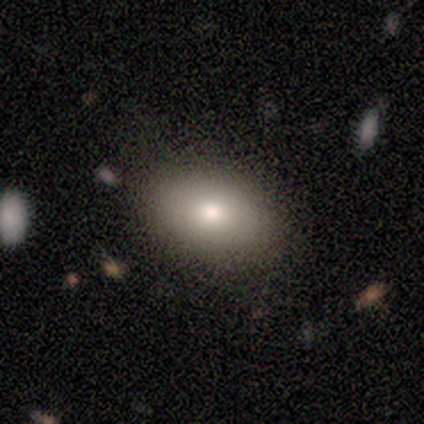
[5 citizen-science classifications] smooth_or_featured: smooth (p=0.80) [alt: star or artifact p=0.20]
how_rounded: in between (p=1.00)
merging: none (p=1.00)